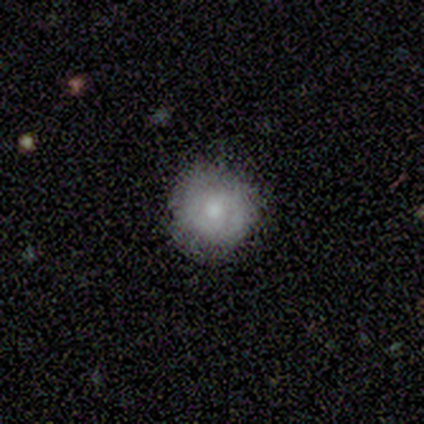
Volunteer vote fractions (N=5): Morphology: type=featured or disk (80%); edge-on=no (100%); bar=no (75%); spiral arms=yes (75%); winding=tight (67%); arm count=can't tell (67%); bulge=moderate (50%); merging=none (80%).